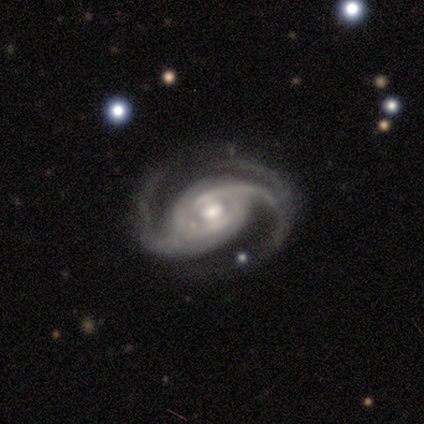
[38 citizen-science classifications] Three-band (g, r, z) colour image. It shows a featured or disk galaxy (100%) with a weak bar (43%), 2 (80%) medium (49%) spiral arms (95%) and a moderate central bulge (73%). Merging: none (71%).